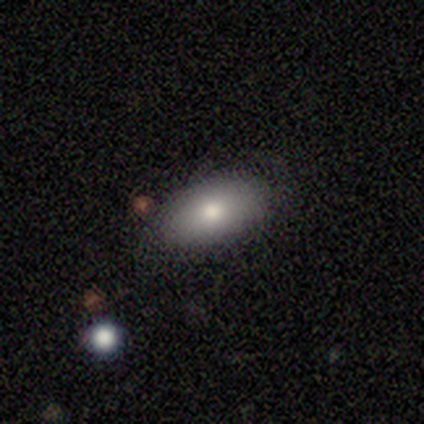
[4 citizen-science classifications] Q: Smooth or featured?
A: smooth (100%)
Q: How rounded?
A: in between (100%)
Q: Merging?
A: none (50%); tied with: minor disturbance (50%)